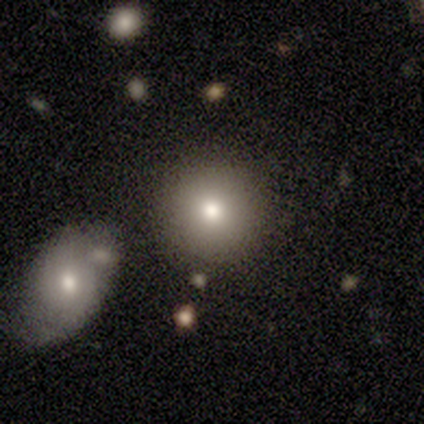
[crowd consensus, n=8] This is marginally a smooth galaxy (38%, tied with star or artifact). How rounded: clearly round (100%). Merging: clearly none (100%).